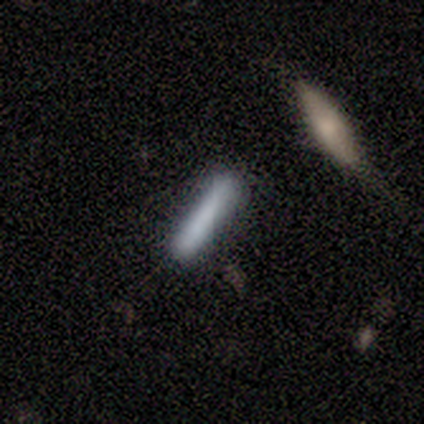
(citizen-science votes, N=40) smooth-or-featured: smooth: 85% | featured or disk: 12% | star or artifact: 2%
  how-rounded: cigar-shaped: 91% | in between: 9% | round: 0%
  merging: none: 62% | minor disturbance: 15% | merger: 10% | major disturbance: 0%